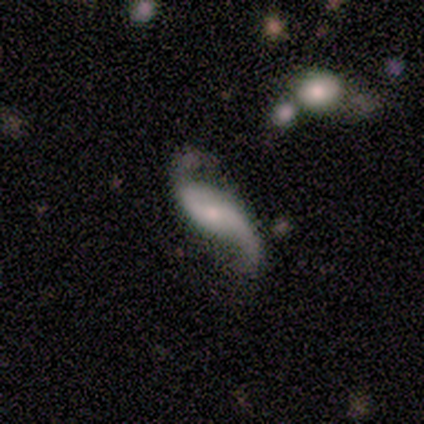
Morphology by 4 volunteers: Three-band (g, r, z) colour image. It shows a featured or disk galaxy (100%) with a weak bar (50%), 2 (100%) loose (100%) spiral arms (100%) and a small central bulge (100%). Merging: none (50%, tied with minor disturbance).